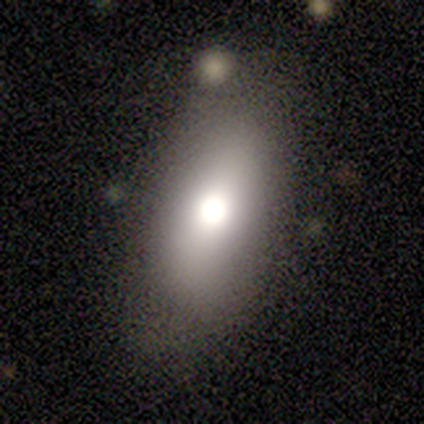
Q: Smooth or featured?
A: smooth (67%); runner-up: featured or disk (33%)
Q: How rounded?
A: in between (100%)
Q: Merging?
A: none (78%); runner-up: minor disturbance (22%)